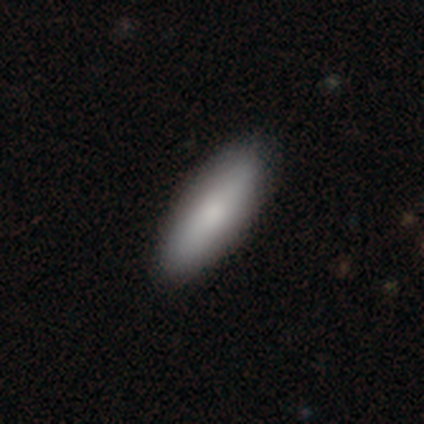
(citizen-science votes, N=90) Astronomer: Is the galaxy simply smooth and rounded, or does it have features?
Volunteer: smooth — 87%.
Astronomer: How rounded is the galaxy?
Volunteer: in between — 56% (runner-up: cigar-shaped, 42%).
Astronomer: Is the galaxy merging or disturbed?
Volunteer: none — 91%.